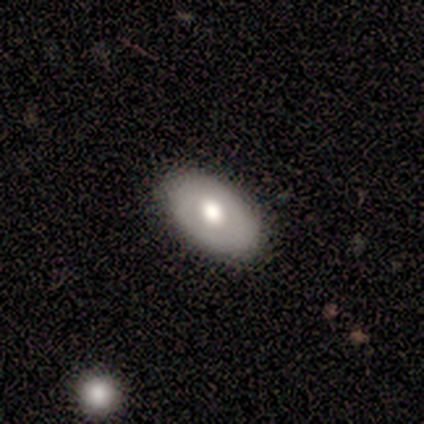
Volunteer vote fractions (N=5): smooth 60%, featured or disk 40%, star or artifact 0%. Down the decision tree: how rounded — in between (67%); merging — none (80%).